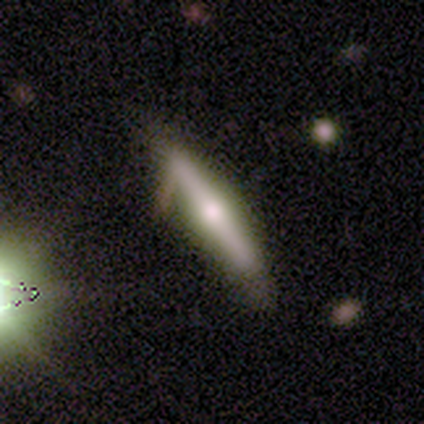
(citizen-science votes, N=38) Volunteers were most divided on "merging": none: 72%, minor disturbance: 25%, major disturbance: 3%, merger: 0%. More confident: edge-on disk — yes (96%); edge-on bulge — rounded (77%); smooth or featured — featured or disk (71%).